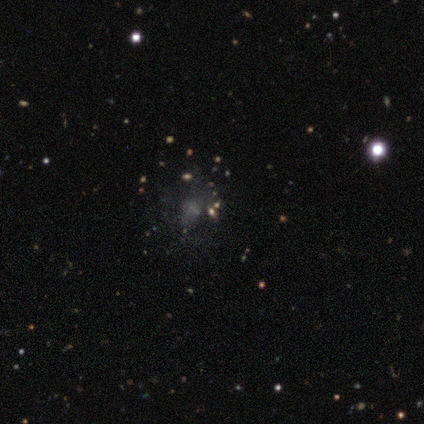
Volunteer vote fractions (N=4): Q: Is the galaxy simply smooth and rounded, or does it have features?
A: featured or disk — 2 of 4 (50%).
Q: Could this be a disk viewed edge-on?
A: no — 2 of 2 (100%).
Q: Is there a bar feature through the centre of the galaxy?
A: weak — 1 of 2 (50%, tied with no).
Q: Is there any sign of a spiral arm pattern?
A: yes — 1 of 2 (50%, tied with no).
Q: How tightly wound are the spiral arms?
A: tight — 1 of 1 (100%).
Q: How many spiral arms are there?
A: can't tell — 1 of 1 (100%).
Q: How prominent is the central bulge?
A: dominant — 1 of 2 (50%, tied with none).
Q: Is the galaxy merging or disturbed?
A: none — 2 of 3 (67%).